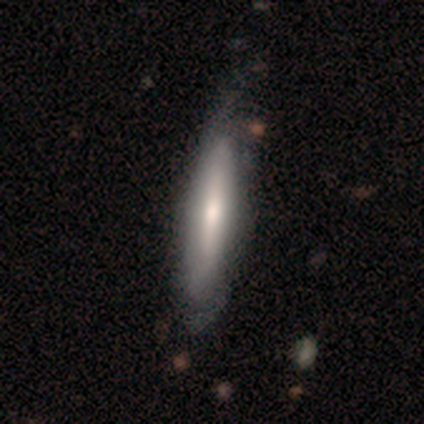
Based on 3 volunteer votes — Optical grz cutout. It shows a smooth galaxy with no disk features (67%) that is cigar-shaped (100%). Merging: minor disturbance (67%).